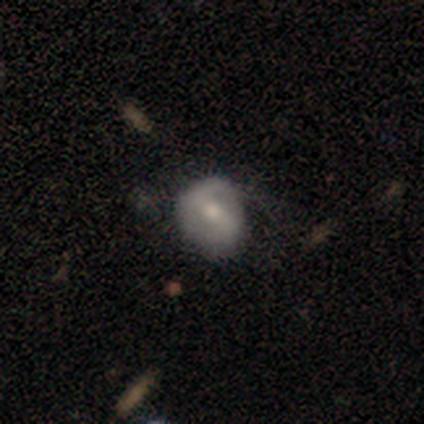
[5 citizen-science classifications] Smooth or featured?
  - smooth: 80% *
  - featured or disk: 20%
  - star or artifact: 0%
How rounded?
  - round: 50% * (tied)
  - in between: 50% * (tied)
  - cigar-shaped: 0%
Merging?
  - none: 80% *
  - minor disturbance: 20%
  - major disturbance: 0%
  - merger: 0%